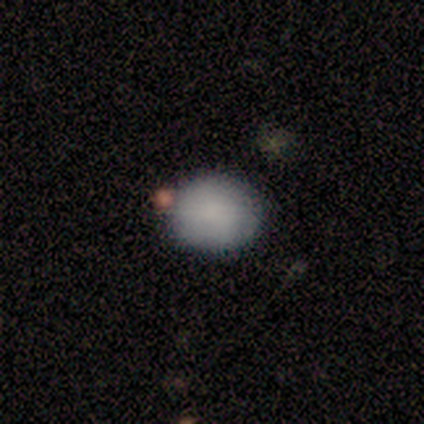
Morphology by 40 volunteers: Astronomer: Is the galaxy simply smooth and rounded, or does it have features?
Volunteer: smooth — 88%.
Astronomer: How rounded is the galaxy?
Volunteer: round — 60% (runner-up: in between, 40%).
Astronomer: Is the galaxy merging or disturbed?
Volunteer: none — 81%.